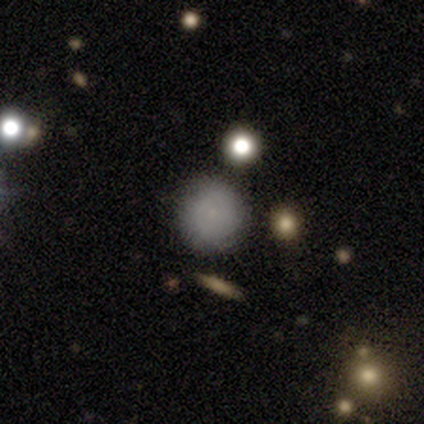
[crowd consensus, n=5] This appears to be a smooth galaxy with no disk features (60%) that is round (100%). Merging: none (80%).